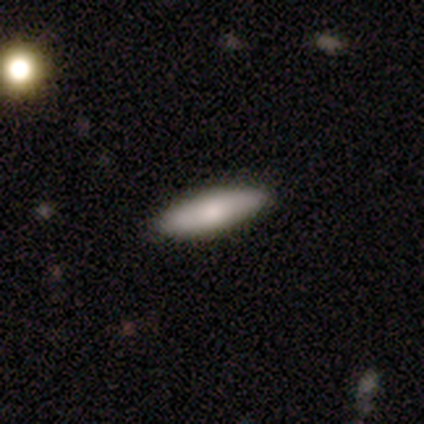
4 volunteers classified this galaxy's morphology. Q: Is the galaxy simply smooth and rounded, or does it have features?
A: smooth — 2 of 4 (50%, tied with star or artifact).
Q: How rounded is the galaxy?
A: in between — 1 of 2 (50%, tied with cigar-shaped).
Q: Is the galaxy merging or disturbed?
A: none — 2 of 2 (100%).